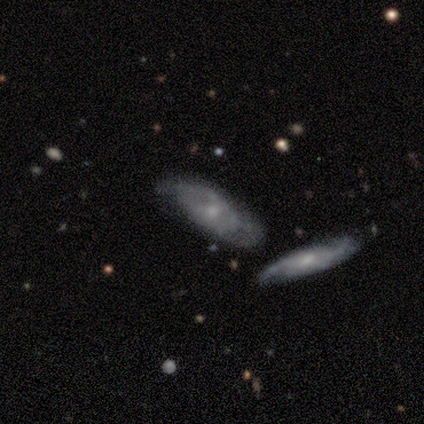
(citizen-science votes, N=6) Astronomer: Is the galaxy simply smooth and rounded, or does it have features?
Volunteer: featured or disk — 67%.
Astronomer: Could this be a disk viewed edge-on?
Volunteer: no — 75%.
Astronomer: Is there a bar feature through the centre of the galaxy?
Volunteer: no — 100%.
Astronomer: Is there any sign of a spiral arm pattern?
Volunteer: yes — 67%.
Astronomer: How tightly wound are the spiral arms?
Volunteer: tight — 50%, tied with loose at 50%.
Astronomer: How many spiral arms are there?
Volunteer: can't tell — 100%.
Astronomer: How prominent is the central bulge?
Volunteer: small — 67%.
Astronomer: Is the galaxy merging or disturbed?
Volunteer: none — 60%.